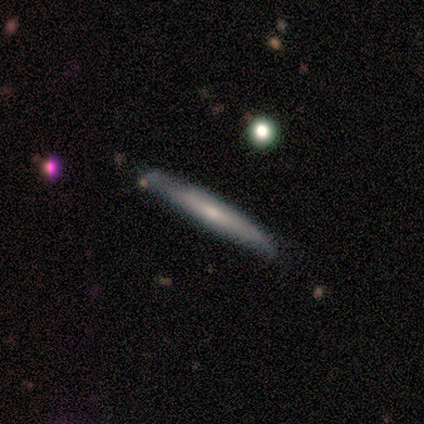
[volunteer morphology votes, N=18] smooth-or-featured: smooth: 56% | featured or disk: 44% | star or artifact: 0%
  how-rounded: cigar-shaped: 90% | in between: 10% | round: 0%
  merging: none: 83% | minor disturbance: 11% | merger: 6% | major disturbance: 0%